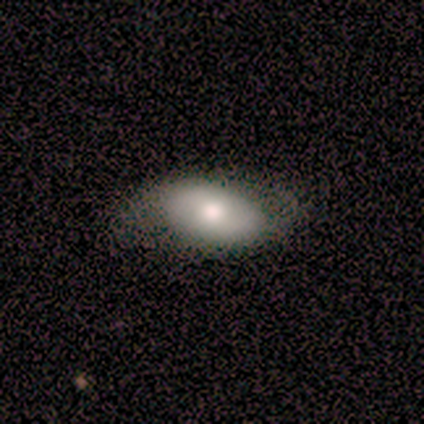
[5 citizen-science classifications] This is clearly a smooth galaxy (80%). How rounded: possibly round (50%, tied with in between). Merging: clearly none (80%).